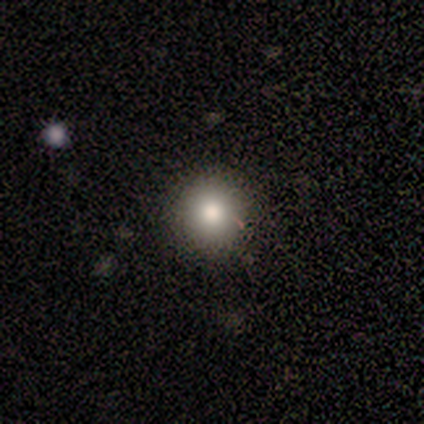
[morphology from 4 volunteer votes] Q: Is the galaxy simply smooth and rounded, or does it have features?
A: smooth — 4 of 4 (100%).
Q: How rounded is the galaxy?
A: round — 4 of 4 (100%).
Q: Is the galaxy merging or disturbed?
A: none — 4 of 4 (100%).